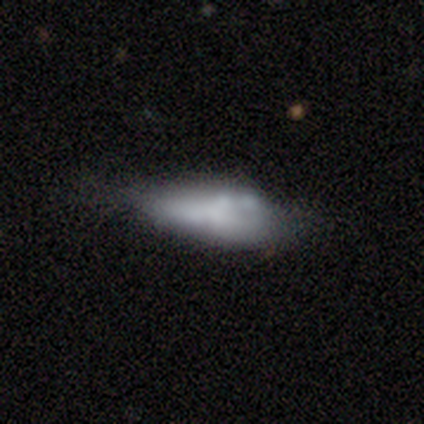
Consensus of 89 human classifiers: smooth_or_featured: smooth (p=0.66) [alt: featured or disk p=0.31]
how_rounded: in between (p=0.80) [alt: cigar-shaped p=0.17]
merging: minor disturbance (p=0.37) [alt: none p=0.30]